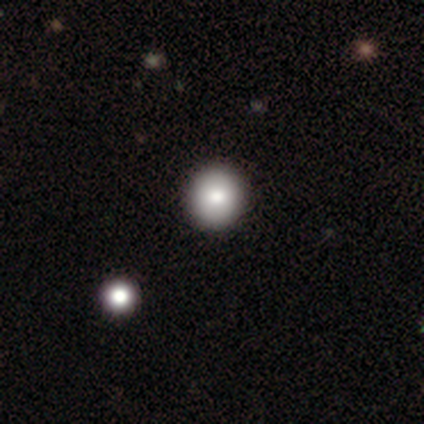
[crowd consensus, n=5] smooth_or_featured: smooth (p=0.80) [alt: featured or disk p=0.20]
how_rounded: round (p=1.00)
merging: none (p=1.00)